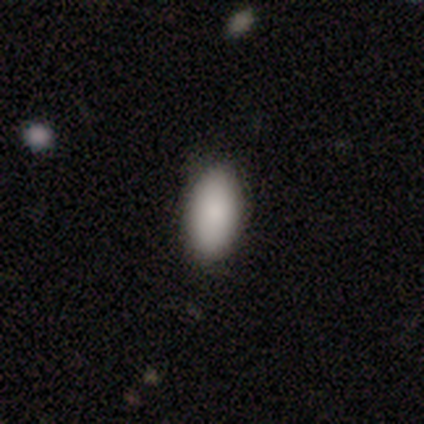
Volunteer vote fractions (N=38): Morphology: type=smooth (87%); roundness=in between (97%); merging=none (86%).